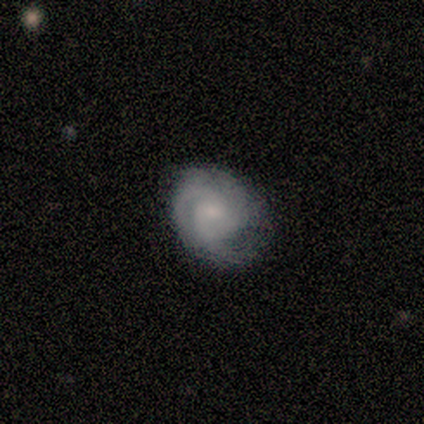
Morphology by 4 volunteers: Smooth or featured?
  - smooth: 50% * (tied)
  - featured or disk: 50% * (tied)
  - star or artifact: 0%
How rounded?
  - round: 50% * (tied)
  - in between: 50% * (tied)
  - cigar-shaped: 0%
Merging?
  - none: 75% *
  - minor disturbance: 25%
  - major disturbance: 0%
  - merger: 0%